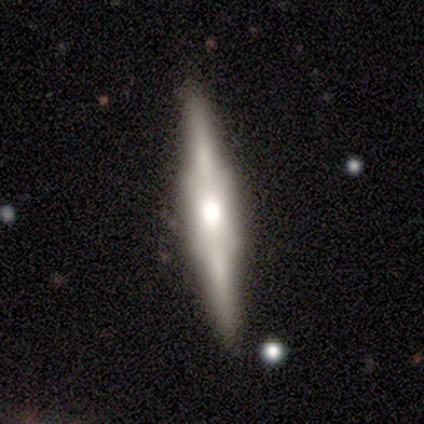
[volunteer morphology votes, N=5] smooth 40% (tied), featured or disk 40% (tied), star or artifact 20%. Down the decision tree: how rounded — cigar-shaped (100%); merging — none (75%).